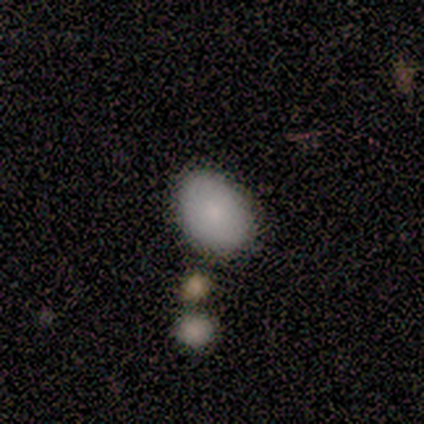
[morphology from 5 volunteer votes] Smooth or featured? smooth (80%)
How rounded? round (50%, tied with in between)
Merging? none (100%)